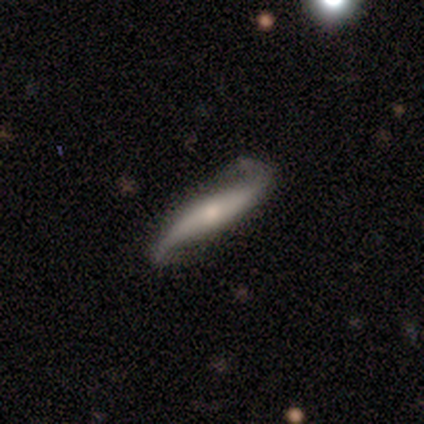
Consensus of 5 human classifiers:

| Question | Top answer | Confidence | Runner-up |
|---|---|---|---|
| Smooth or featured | featured or disk | 60% | smooth (40%) |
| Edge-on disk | yes | 67% | no (33%) |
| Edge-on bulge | rounded | 100% | — |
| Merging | minor disturbance | 60% | none (40%) |